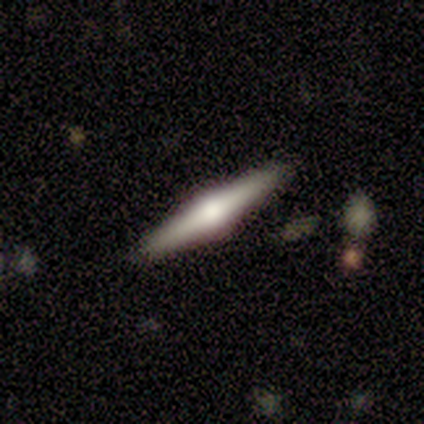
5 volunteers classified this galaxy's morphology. Q: Smooth or featured?
A: featured or disk (100%)
Q: Edge-on disk?
A: yes (100%)
Q: Edge-on bulge?
A: rounded (100%)
Q: Merging?
A: none (80%); runner-up: minor disturbance (20%)